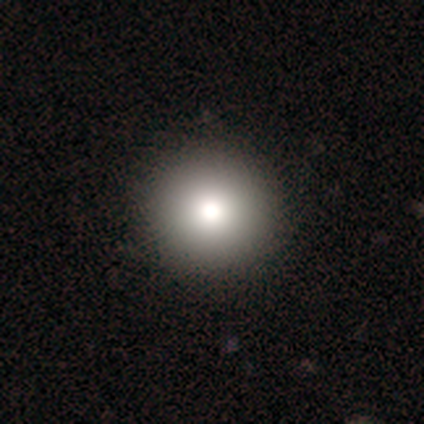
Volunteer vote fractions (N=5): This is clearly a smooth galaxy (100%). How rounded: clearly round (100%). Merging: clearly none (100%).